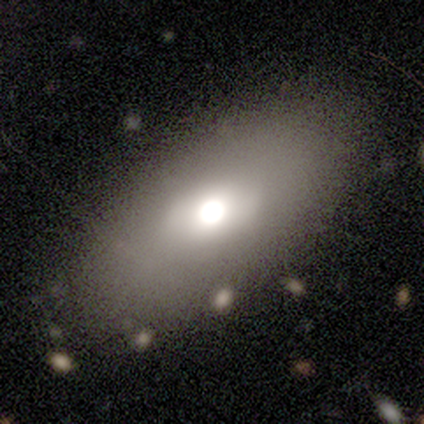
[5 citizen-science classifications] Smooth or featured? smooth (80%)
How rounded? in between (100%)
Merging? none (80%)